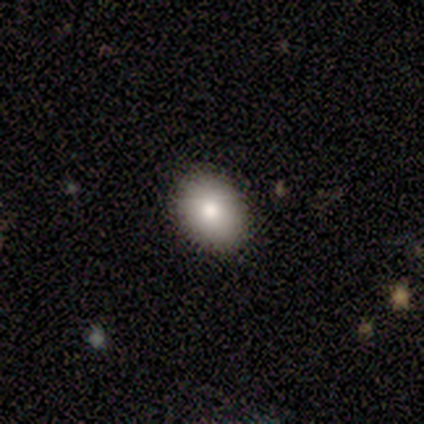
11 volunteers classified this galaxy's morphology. smooth_or_featured: smooth (p=0.91) [alt: featured or disk p=0.09]
how_rounded: in between (p=0.70) [alt: round p=0.30]
merging: none (p=0.91) [alt: minor disturbance p=0.09]